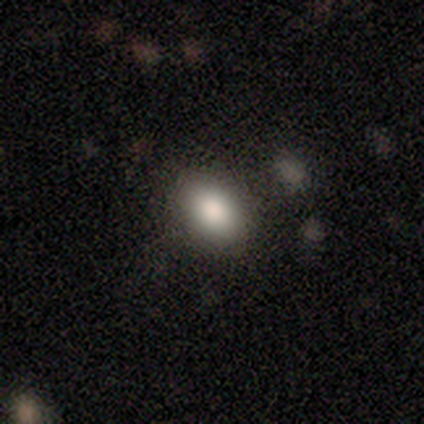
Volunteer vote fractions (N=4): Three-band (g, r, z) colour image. It shows a smooth galaxy with no disk features (75%) that is in between round and cigar-shaped (100%). Merging: none (100%).